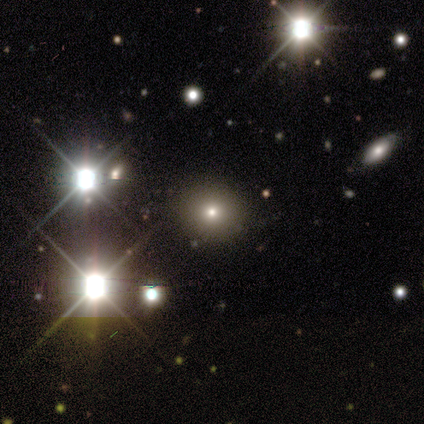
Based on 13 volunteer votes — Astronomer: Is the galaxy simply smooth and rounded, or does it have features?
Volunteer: smooth — 54% (runner-up: featured or disk, 31%).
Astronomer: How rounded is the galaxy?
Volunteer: round — 86%.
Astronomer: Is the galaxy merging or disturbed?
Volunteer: none — 91%.